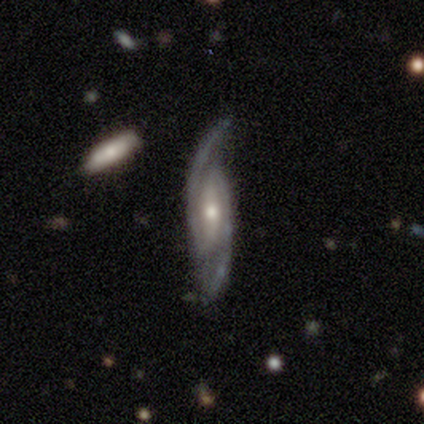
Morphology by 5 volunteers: This is clearly a featured or disk galaxy (100%). It is clearly not viewed edge-on (100%). Bar: likely weak (60%). Spiral arm pattern: clearly yes (100%). Spiral arm count: clearly 2 (100%). Spiral winding: clearly tight (80%). Central bulge: clearly moderate (80%). Merging: clearly none (100%).